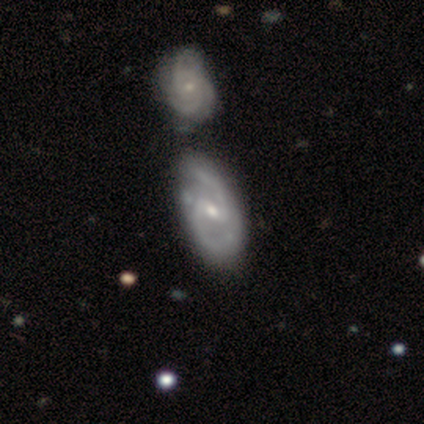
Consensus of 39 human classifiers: featured or disk 90%, smooth 5%, star or artifact 5%. Down the decision tree: edge-on disk — no (97%); bar — weak (68%); spiral arms — yes (94%); spiral arm count — 2 (91%); spiral winding — medium (69%); bulge size — small (56%); merging — none (35%).